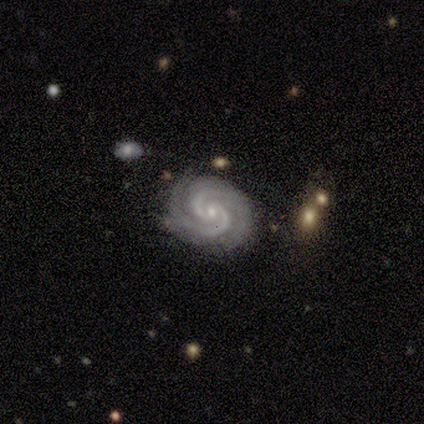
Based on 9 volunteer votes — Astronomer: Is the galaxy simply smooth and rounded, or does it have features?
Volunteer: featured or disk — 100%.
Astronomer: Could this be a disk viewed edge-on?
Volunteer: no — 100%.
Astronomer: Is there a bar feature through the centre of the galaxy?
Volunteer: no — 56% (runner-up: weak, 33%).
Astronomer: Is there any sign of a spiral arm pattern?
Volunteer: yes — 100%.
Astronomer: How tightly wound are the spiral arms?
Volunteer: tight — 78%.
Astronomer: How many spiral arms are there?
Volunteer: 2 — 89%.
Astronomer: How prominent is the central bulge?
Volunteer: small — 78%.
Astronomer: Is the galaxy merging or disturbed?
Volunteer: none — 78%.